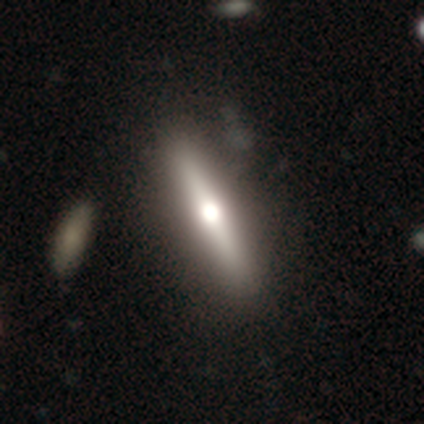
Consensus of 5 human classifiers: smooth_or_featured: featured or disk (p=0.60) [alt: smooth p=0.20]
disk_edge_on: no (p=0.67) [alt: yes p=0.33]
bar: strong (p=0.50) [tied with: no p=0.50]
has_spiral_arms: no (p=1.00)
bulge_size: moderate (p=1.00)
merging: none (p=1.00)